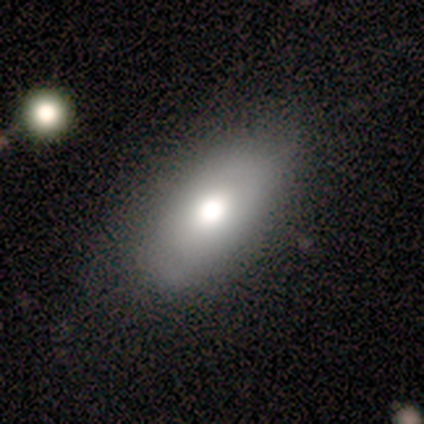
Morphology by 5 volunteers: smooth-or-featured: smooth: 80% | star or artifact: 20% | featured or disk: 0%
  how-rounded: in between: 100% | round: 0% | cigar-shaped: 0%
  merging: none: 75% | minor disturbance: 25% | major disturbance: 0% | merger: 0%